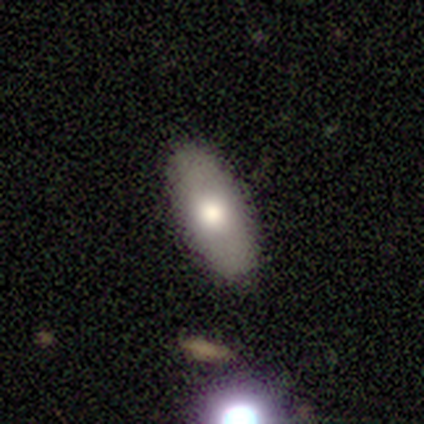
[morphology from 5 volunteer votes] This appears to be a smooth galaxy with no disk features (80%) that is in between round and cigar-shaped (75%). Merging: none (100%).